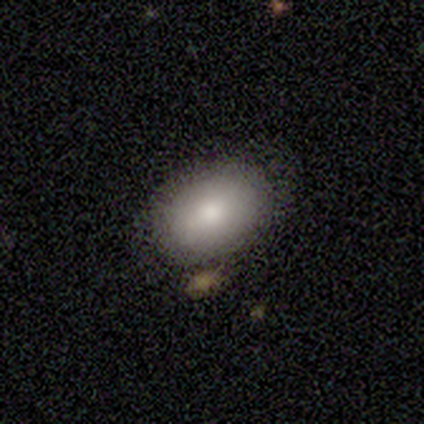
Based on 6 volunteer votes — smooth-or-featured: smooth: 50% | featured or disk: 33% | star or artifact: 17%
  how-rounded: in between: 100% | round: 0% | cigar-shaped: 0%
  merging: none: 40% (tied) | minor disturbance: 40% (tied) | merger: 20% | major disturbance: 0%